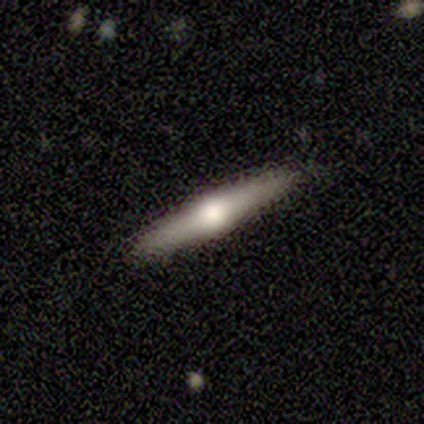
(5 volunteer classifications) Smooth or featured? 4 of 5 (80%) said smooth. How rounded? 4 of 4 (100%) said cigar-shaped. Merging? 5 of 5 (100%) said none.